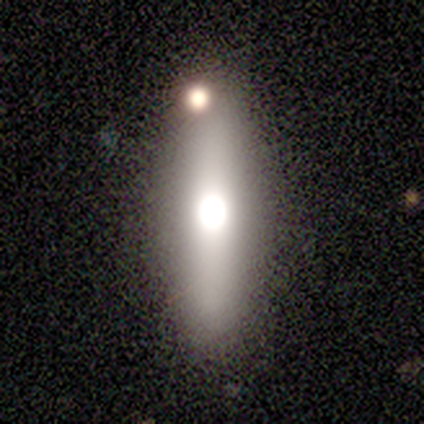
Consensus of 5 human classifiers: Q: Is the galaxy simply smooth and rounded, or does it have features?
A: smooth — 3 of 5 (60%).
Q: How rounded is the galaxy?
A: cigar-shaped — 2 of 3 (67%).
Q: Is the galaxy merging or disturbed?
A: none — 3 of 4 (75%).